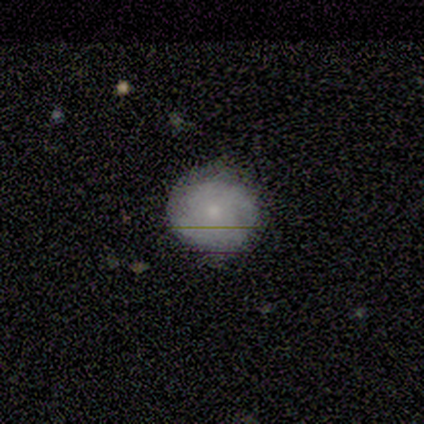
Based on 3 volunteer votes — This is clearly a featured or disk galaxy (100%). It is clearly not viewed edge-on (100%). Bar: likely no (67%). Spiral arm pattern: likely yes (67%). Spiral arm count: possibly 2 (50%, tied with can't tell). Spiral winding: possibly tight (50%, tied with medium). Central bulge: likely moderate (67%). Merging: clearly none (100%).